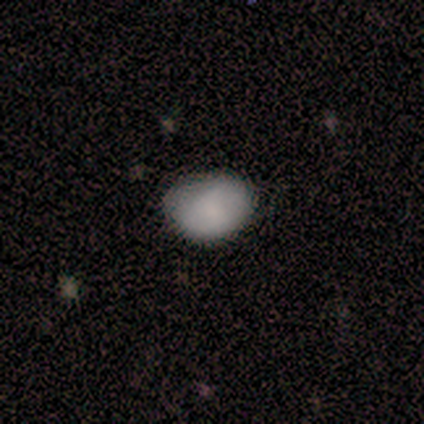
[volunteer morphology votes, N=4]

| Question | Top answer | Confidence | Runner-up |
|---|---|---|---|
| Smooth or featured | smooth | 100% | — |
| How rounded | in between | 100% | — |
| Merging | none | 75% | minor disturbance (25%) |